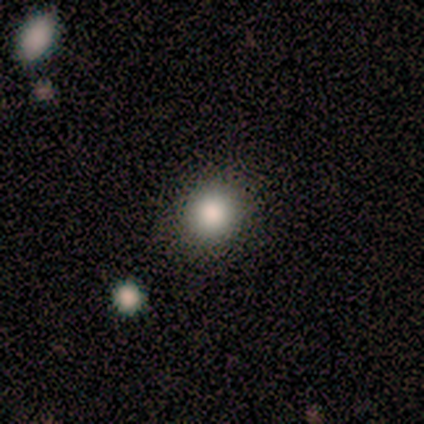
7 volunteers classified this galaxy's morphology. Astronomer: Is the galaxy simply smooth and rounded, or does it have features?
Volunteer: smooth — 71%.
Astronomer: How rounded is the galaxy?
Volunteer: round — 100%.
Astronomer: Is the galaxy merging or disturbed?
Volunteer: none — 80%.